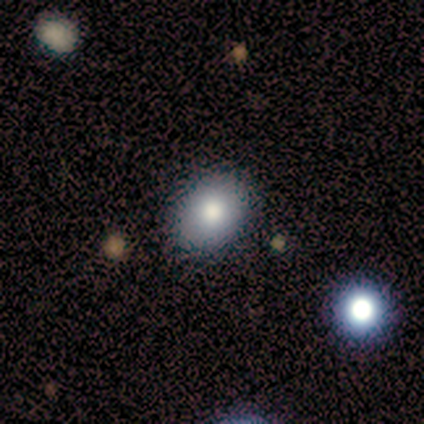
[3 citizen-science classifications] Smooth or featured: smooth — 100%
How rounded: in between — 67% (round — 33%)
Merging: none — 100%